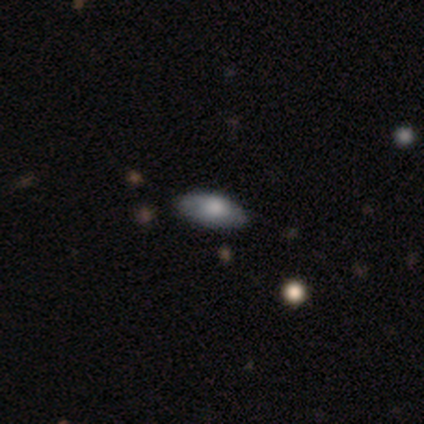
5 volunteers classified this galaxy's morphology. Smooth or featured? 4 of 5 (80%) said smooth. How rounded? 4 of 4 (100%) said in between. Merging? 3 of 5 (60%) said none.